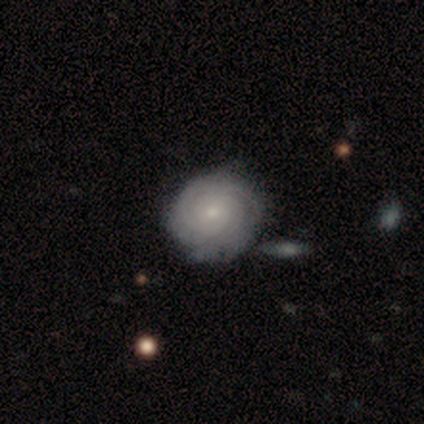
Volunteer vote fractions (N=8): Q: Smooth or featured?
A: featured or disk (75%); runner-up: smooth (25%)
Q: Edge-on disk?
A: no (100%)
Q: Bar?
A: no (83%); runner-up: weak (17%)
Q: Spiral arms?
A: yes (100%)
Q: Spiral winding?
A: tight (83%); runner-up: loose (17%)
Q: Spiral arm count?
A: 3 (67%); runner-up: 2 (17%)
Q: Bulge size?
A: small (83%); runner-up: moderate (17%)
Q: Merging?
A: none (75%); runner-up: minor disturbance (12%)